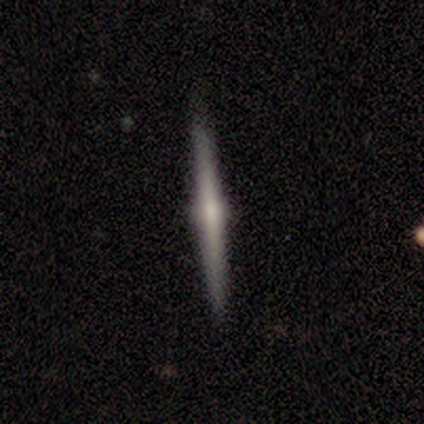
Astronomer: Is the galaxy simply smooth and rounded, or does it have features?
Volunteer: featured or disk — 80%.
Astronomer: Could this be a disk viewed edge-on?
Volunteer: yes — 100%.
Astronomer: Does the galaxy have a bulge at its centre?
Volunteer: rounded — 50%.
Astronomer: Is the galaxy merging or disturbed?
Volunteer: none — 80%.